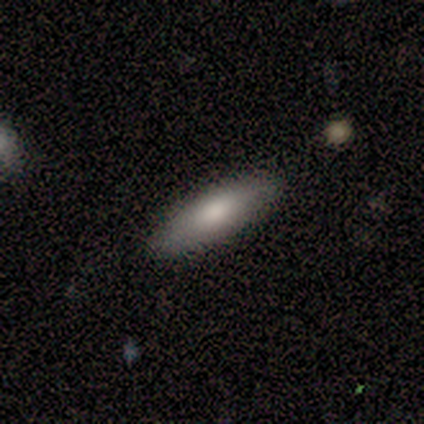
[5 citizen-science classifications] Smooth or featured? smooth (100%)
How rounded? cigar-shaped (60%)
Merging? none (80%)